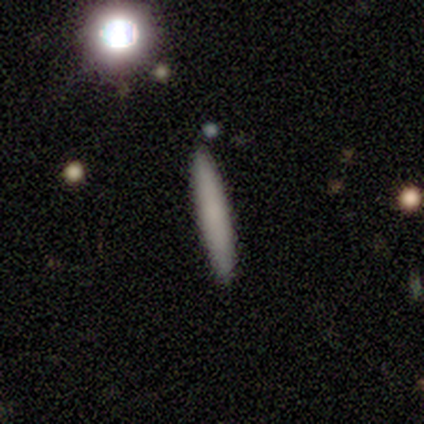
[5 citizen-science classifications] Smooth or featured: smooth — 80% (featured or disk — 20%)
How rounded: cigar-shaped — 100%
Merging: none — 80% (minor disturbance — 20%)